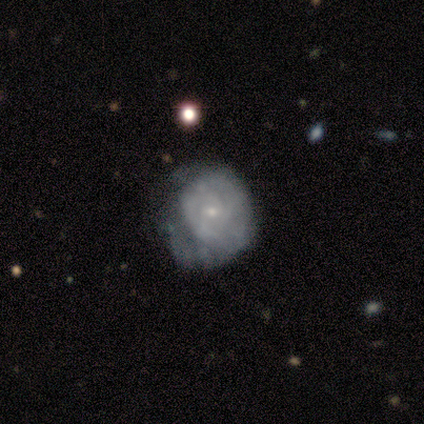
smooth_or_featured: featured or disk (p=1.00)
disk_edge_on: no (p=1.00)
bar: no (p=0.60) [alt: weak p=0.40]
has_spiral_arms: yes (p=0.60) [alt: no p=0.40]
spiral_winding: medium (p=0.67) [alt: tight p=0.33]
spiral_arm_count: can't tell (p=0.67) [alt: 1 p=0.33]
bulge_size: small (p=0.60) [alt: dominant p=0.20]
merging: none (p=0.60) [alt: minor disturbance p=0.20]